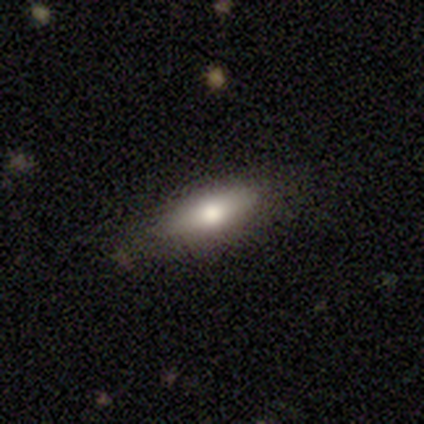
Smooth or featured? smooth (60%)
How rounded? in between (100%)
Merging? none (100%)